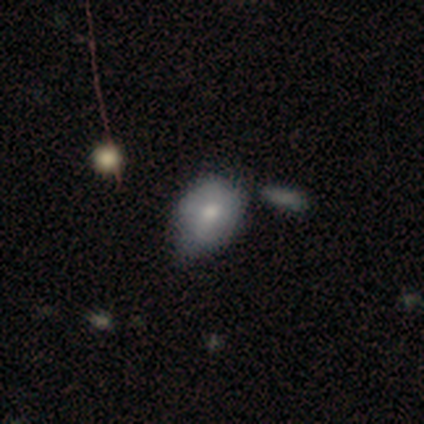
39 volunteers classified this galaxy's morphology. Smooth or featured: smooth — 72% (featured or disk — 26%)
How rounded: in between — 75% (round — 21%)
Merging: minor disturbance — 58% (none — 16%)